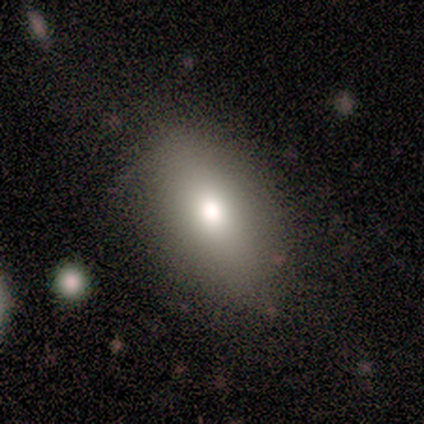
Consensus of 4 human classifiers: smooth 50% (tied), star or artifact 50% (tied), featured or disk 0%. Down the decision tree: how rounded — in between (100%); merging — none (50%, tied with minor disturbance).